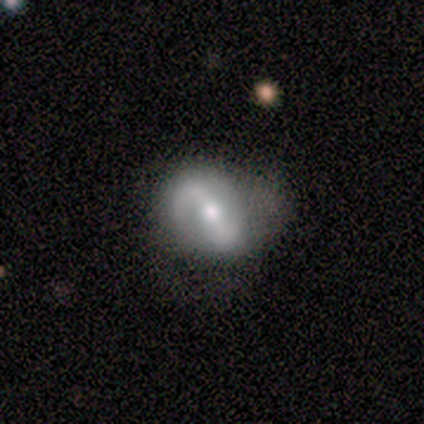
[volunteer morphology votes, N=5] Q: Smooth or featured?
A: featured or disk (100%)
Q: Edge-on disk?
A: no (100%)
Q: Bar?
A: strong (40%); tied with: no (40%)
Q: Spiral arms?
A: yes (80%); runner-up: no (20%)
Q: Spiral winding?
A: tight (50%); tied with: medium (50%)
Q: Spiral arm count?
A: 2 (100%)
Q: Bulge size?
A: moderate (60%); runner-up: small (40%)
Q: Merging?
A: none (40%); tied with: minor disturbance (40%)